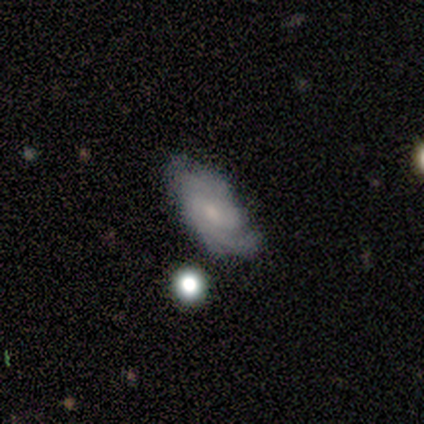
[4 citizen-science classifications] This appears to be a featured or disk galaxy (75%) with a weak bar (67%), 3 (67%) medium (67%) spiral arms (100%) and a moderate central bulge (33%, tied with small and none). Merging: none (75%).